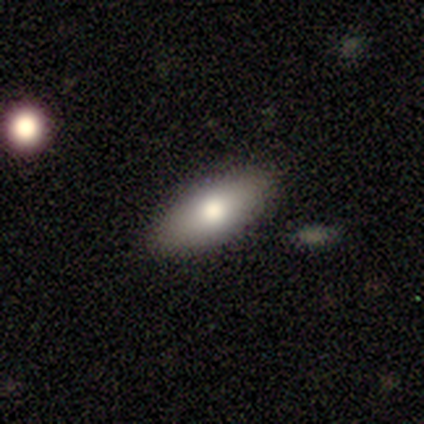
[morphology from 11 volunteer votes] This appears to be a smooth galaxy with no disk features (91%) that is in between round and cigar-shaped (100%). Merging: none (90%).